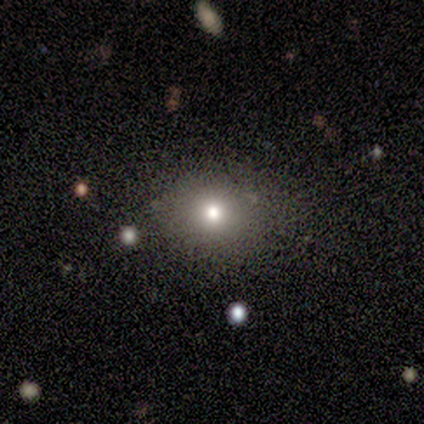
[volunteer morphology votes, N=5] smooth_or_featured: smooth (p=0.60) [alt: featured or disk p=0.20]
how_rounded: round (p=1.00)
merging: none (p=1.00)